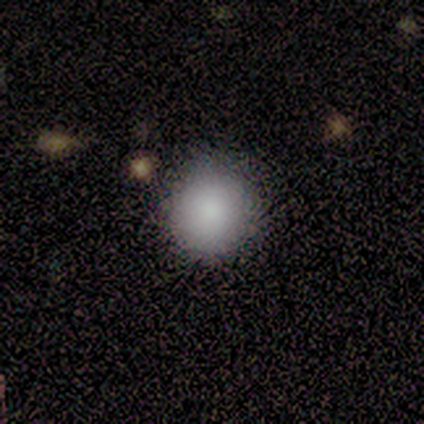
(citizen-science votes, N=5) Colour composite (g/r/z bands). It shows a smooth galaxy with no disk features (100%) that is round (80%). Merging: none (80%).